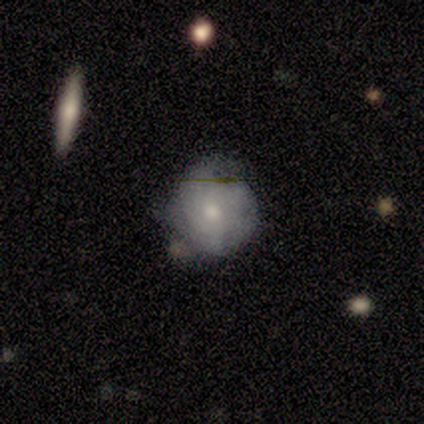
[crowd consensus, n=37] Morphology: type=smooth (46%); roundness=round (82%); merging=minor disturbance (57%).